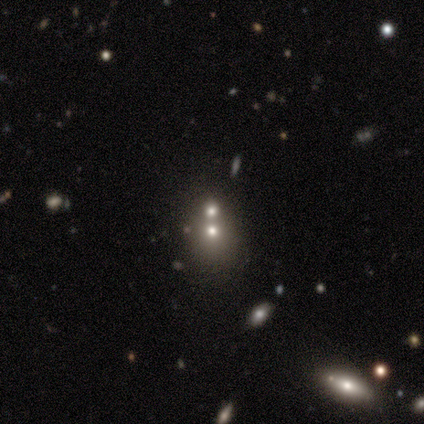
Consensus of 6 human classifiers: Smooth or featured? smooth (67%)
How rounded? round (75%)
Merging? merger (67%)